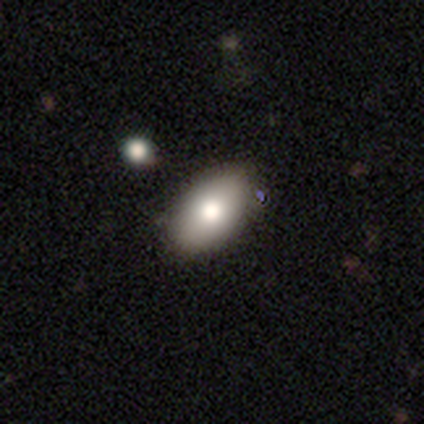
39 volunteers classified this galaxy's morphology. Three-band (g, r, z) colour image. It shows a smooth galaxy with no disk features (82%) that is in between round and cigar-shaped (100%). Merging: none (64%).